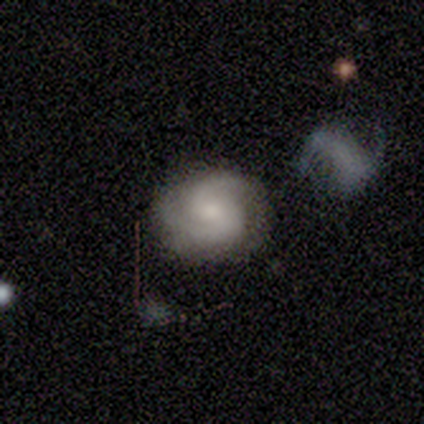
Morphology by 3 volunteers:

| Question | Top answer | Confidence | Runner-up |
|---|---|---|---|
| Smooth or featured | featured or disk | 100% | — |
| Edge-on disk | no | 100% | — |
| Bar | no | 100% | — |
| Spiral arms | yes | 100% | — |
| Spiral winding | medium | 100% | — |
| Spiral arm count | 2 | 100% | — |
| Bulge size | large | 67% | dominant (33%) |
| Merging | none | 67% | merger (33%) |